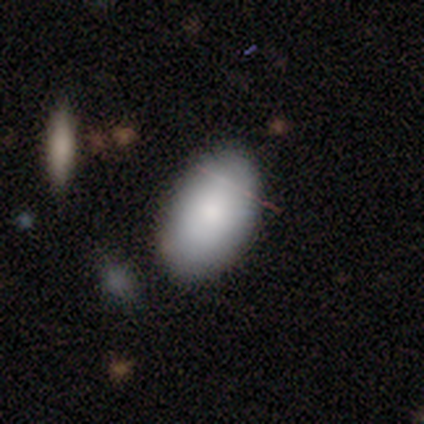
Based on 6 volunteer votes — smooth 100%, featured or disk 0%, star or artifact 0%. Down the decision tree: how rounded — in between (100%); merging — none (83%).